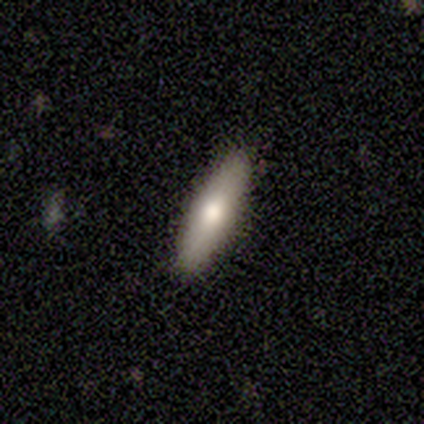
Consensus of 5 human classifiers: This is likely a smooth galaxy (60%). How rounded: likely cigar-shaped (67%). Merging: clearly none (100%).